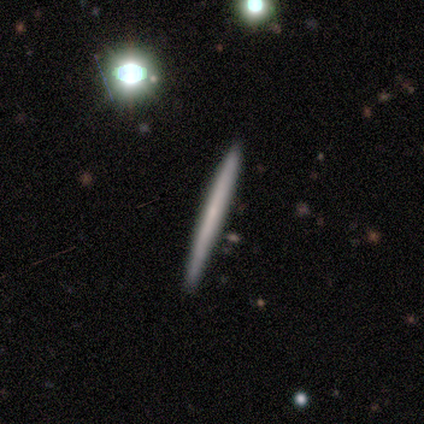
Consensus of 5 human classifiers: Smooth or featured? 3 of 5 (60%) said smooth. How rounded? 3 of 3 (100%) said cigar-shaped. Merging? 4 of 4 (100%) said none.